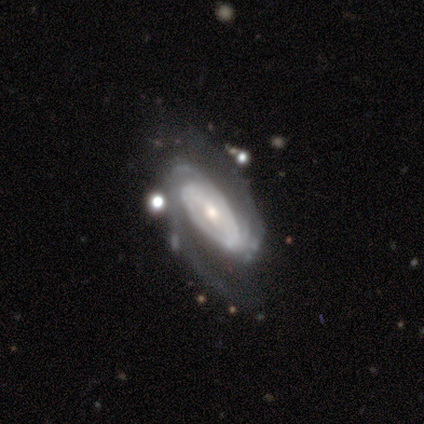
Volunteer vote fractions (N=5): Smooth or featured?
  - featured or disk: 100% *
  - smooth: 0%
  - star or artifact: 0%
Edge-on disk?
  - no: 100% *
  - yes: 0%
Bar?
  - no: 100% *
  - strong: 0%
  - weak: 0%
Spiral arms?
  - yes: 80% *
  - no: 20%
Spiral winding?
  - tight: 50% * (tied)
  - medium: 50% * (tied)
  - loose: 0%
Spiral arm count?
  - 2: 75% *
  - can't tell: 25%
  - 1: 0%
  - 3: 0%
  - 4: 0%
  - more than 4: 0%
Bulge size?
  - moderate: 60% *
  - small: 40%
  - dominant: 0%
  - large: 0%
  - none: 0%
Merging?
  - none: 60% *
  - minor disturbance: 20%
  - major disturbance: 20%
  - merger: 0%